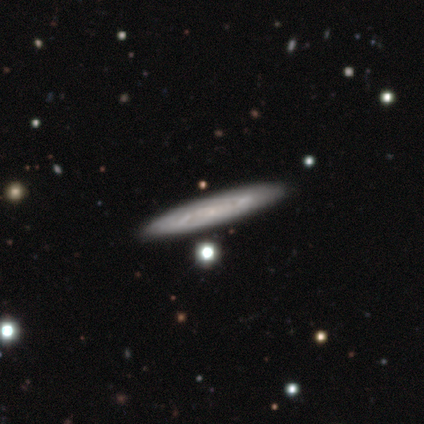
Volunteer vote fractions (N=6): Morphology: type=featured or disk (67%); edge-on=no (75%); bar=no (67%); spiral arms=yes (100%); winding=medium (67%); arm count=2 (100%); bulge=small (67%); merging=none (80%).